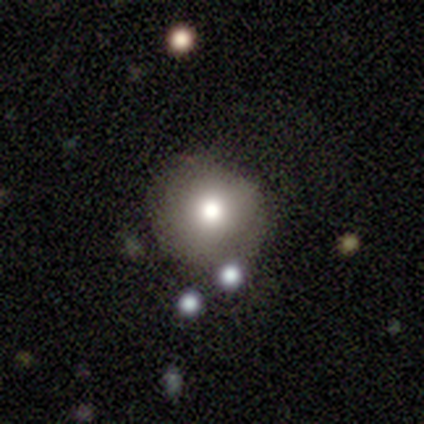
Morphology: type=smooth (78%); roundness=round (97%); merging=none (82%).